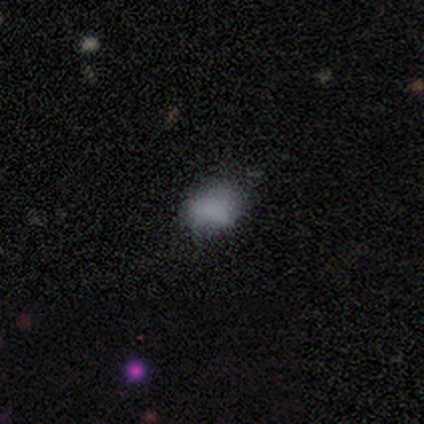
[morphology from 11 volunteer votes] This is likely a smooth galaxy (73%). How rounded: likely in between (62%). Merging: likely none (70%).